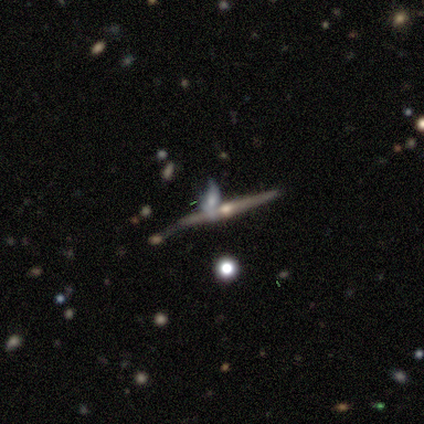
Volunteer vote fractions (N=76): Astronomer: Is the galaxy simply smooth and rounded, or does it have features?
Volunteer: featured or disk — 92%.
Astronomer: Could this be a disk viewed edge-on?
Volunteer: yes — 97%.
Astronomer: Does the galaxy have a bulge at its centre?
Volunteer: rounded — 90%.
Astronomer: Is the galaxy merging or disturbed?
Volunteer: none — 59%.